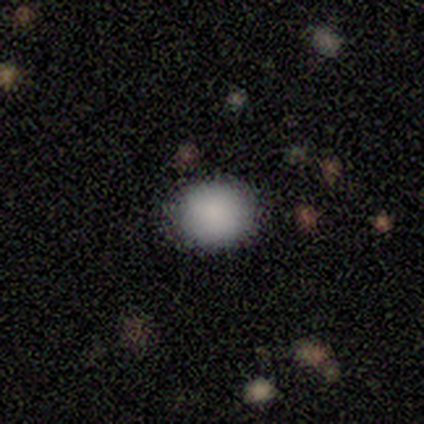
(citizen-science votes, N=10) A smooth galaxy with no disk features (100%) that is round (70%).

Vote fractions:
- Smooth or featured? smooth: 100% / featured or disk: 0% / star or artifact: 0%
- How rounded? round: 70% / in between: 30% / cigar-shaped: 0%
- Merging? none: 90% / minor disturbance: 10% / major disturbance: 0% / merger: 0%